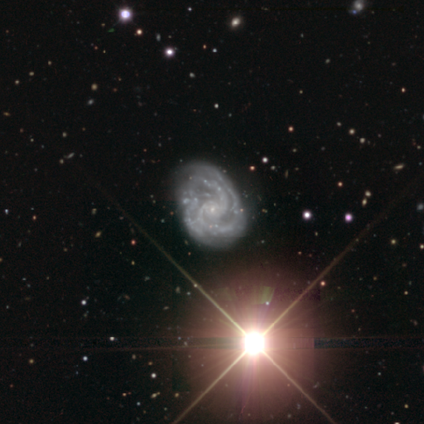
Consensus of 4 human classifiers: This is likely a featured or disk galaxy (75%). It is clearly not viewed edge-on (100%). Bar: clearly no (100%). Spiral arm pattern: clearly yes (100%). Spiral arm count: likely can't tell (67%). Spiral winding: likely medium (67%). Central bulge: clearly small (100%). Merging: possibly none (50%, tied with minor disturbance).